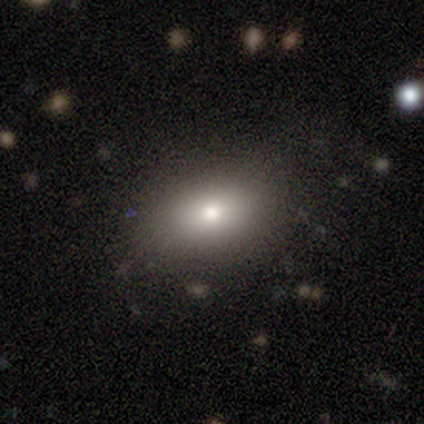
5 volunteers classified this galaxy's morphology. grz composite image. It shows a smooth galaxy with no disk features (80%) that is in between round and cigar-shaped (100%). Merging: none (80%).